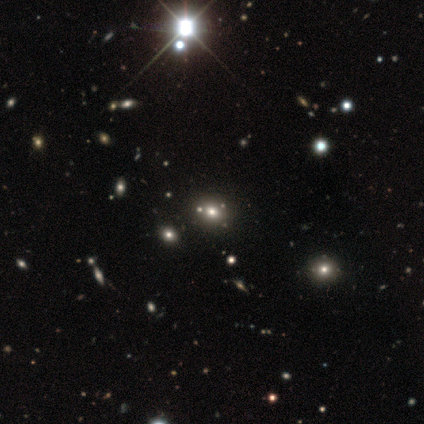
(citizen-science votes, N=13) Smooth or featured?
  - smooth: 62% *
  - star or artifact: 23%
  - featured or disk: 15%
How rounded?
  - round: 62% *
  - in between: 38%
  - cigar-shaped: 0%
Merging?
  - none: 90% *
  - minor disturbance: 10%
  - major disturbance: 0%
  - merger: 0%